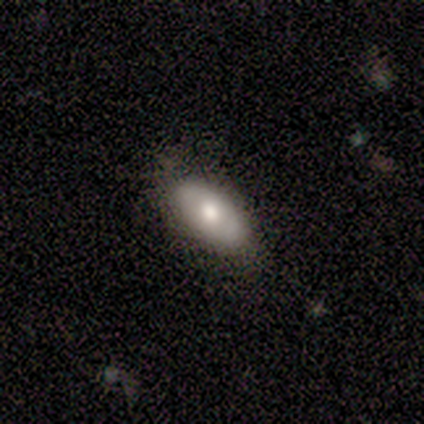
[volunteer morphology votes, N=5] Smooth or featured?
  - featured or disk: 60% *
  - smooth: 40%
  - star or artifact: 0%
Edge-on disk?
  - no: 100% *
  - yes: 0%
Bar?
  - no: 67% *
  - weak: 33%
  - strong: 0%
Spiral arms?
  - no: 67% *
  - yes: 33%
Bulge size?
  - moderate: 100% *
  - dominant: 0%
  - large: 0%
  - small: 0%
  - none: 0%
Merging?
  - none: 80% *
  - major disturbance: 20%
  - minor disturbance: 0%
  - merger: 0%